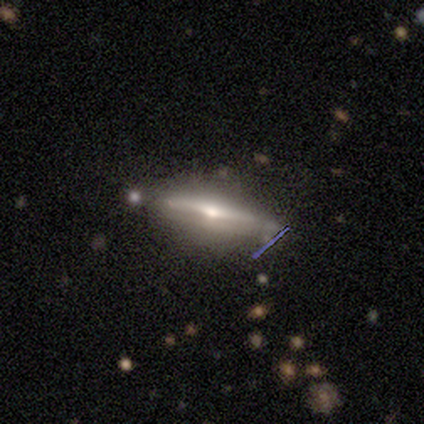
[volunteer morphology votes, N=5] Q: Smooth or featured?
A: featured or disk (80%); runner-up: smooth (20%)
Q: Edge-on disk?
A: yes (100%)
Q: Edge-on bulge?
A: rounded (100%)
Q: Merging?
A: none (80%); runner-up: merger (20%)